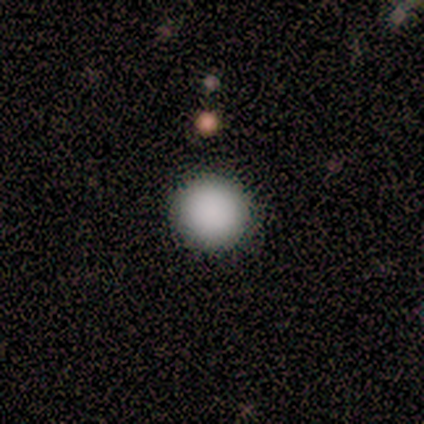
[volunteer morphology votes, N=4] smooth_or_featured: smooth (p=1.00)
how_rounded: round (p=1.00)
merging: none (p=0.75) [alt: minor disturbance p=0.25]